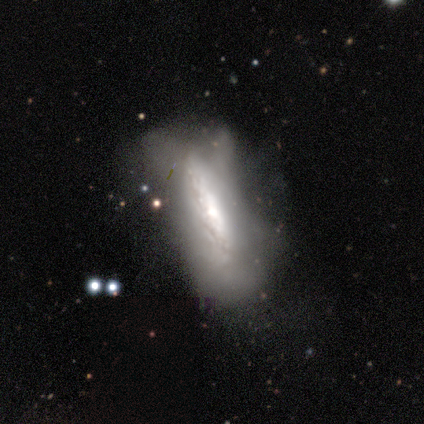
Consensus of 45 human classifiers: A featured or disk galaxy (78%) with no bar (86%), no spiral arms (68%) and a moderate central bulge (41%).

Vote fractions:
- Smooth or featured? featured or disk: 78% / smooth: 22% / star or artifact: 0%
- Edge-on disk? no: 63% / yes: 37%
- Bar? no: 86% / weak: 14% / strong: 0%
- Spiral arms? no: 68% / yes: 32%
- Bulge size? moderate: 41% / small: 32% / large: 18% / none: 9% / dominant: 0%
- Merging? major disturbance: 40% / minor disturbance: 36% / none: 22% / merger: 2%